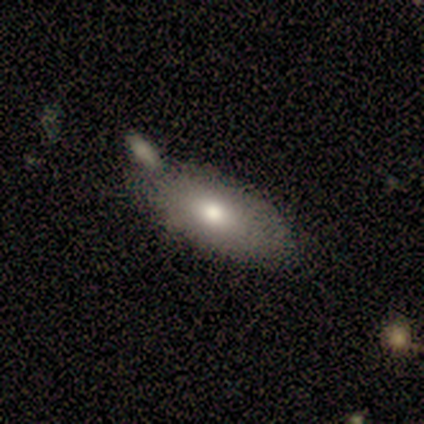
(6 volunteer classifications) smooth_or_featured: smooth (p=1.00)
how_rounded: in between (p=0.83) [alt: cigar-shaped p=0.17]
merging: none (p=0.50) [alt: minor disturbance p=0.33]